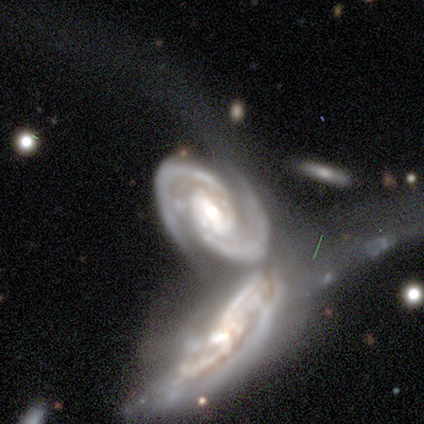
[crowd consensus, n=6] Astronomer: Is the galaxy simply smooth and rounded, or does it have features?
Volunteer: featured or disk — 83%.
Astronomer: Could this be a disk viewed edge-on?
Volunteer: no — 100%.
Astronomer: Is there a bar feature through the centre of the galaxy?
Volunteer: weak — 60% (runner-up: no, 40%).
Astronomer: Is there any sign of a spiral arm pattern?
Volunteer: yes — 100%.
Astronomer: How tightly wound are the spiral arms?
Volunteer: tight — 60% (runner-up: medium, 40%).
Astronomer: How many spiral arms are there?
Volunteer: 2 — 100%.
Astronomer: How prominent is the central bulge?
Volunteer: moderate — 80%.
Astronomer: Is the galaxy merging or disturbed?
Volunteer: merger — 83%.